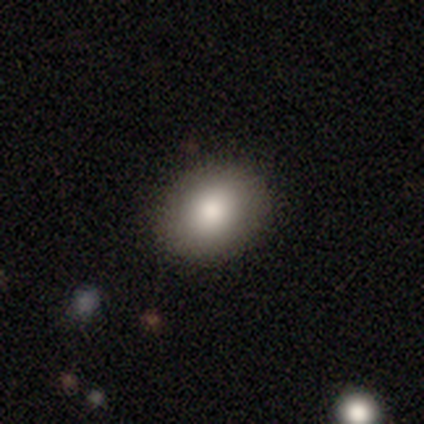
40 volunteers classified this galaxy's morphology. Overall: smooth (85%). How rounded: in between (65%; round 35%). Merging: none (95%).